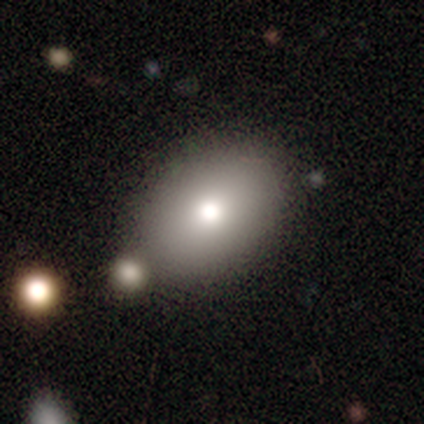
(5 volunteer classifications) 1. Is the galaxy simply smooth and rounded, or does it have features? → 100% smooth, 0% featured or disk, 0% star or artifact.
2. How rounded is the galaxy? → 60% in between, 40% round, 0% cigar-shaped.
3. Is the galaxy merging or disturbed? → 60% none, 40% minor disturbance, 0% major disturbance, 0% merger.